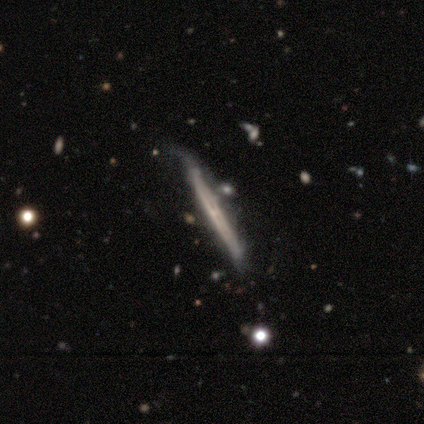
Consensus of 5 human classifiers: Overall: featured or disk (100%). Edge-on disk: yes (80%). Edge-on bulge: none (50%; boxy 25%). Merging: none (80%).